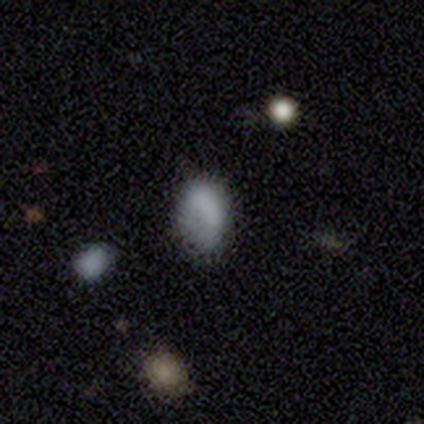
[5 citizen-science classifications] Volunteers were most divided on "merging": none: 60%, minor disturbance: 40%, major disturbance: 0%, merger: 0%. More confident: smooth or featured — smooth (100%); how rounded — in between (80%).